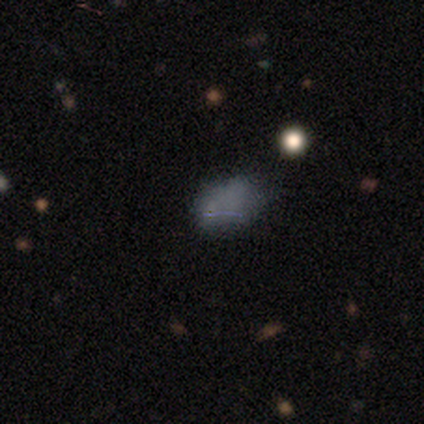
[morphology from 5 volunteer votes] Overall: featured or disk (60%; smooth 40%). Edge-on disk: no (100%). Bar: no (67%; strong 33%). Spiral arms: no (100%). Bulge size: none (100%). Merging: none (60%; major disturbance 40%).